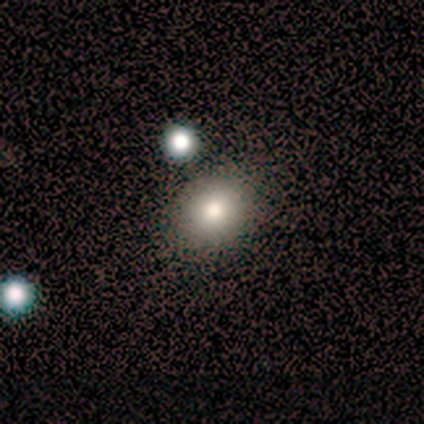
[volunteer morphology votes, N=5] smooth_or_featured: smooth (p=0.40) [tied with: star or artifact p=0.40]
how_rounded: round (p=0.50) [tied with: in between p=0.50]
merging: none (p=0.67) [alt: minor disturbance p=0.33]